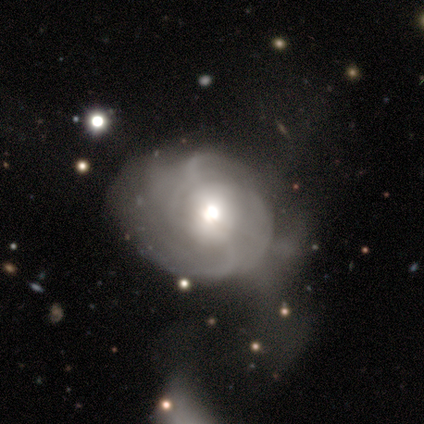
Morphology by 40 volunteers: This appears to be a featured or disk galaxy (85%) with no bar (48%), medium (46%) spiral arms (85%) and a moderate central bulge (58%). Merging: major disturbance (36%).